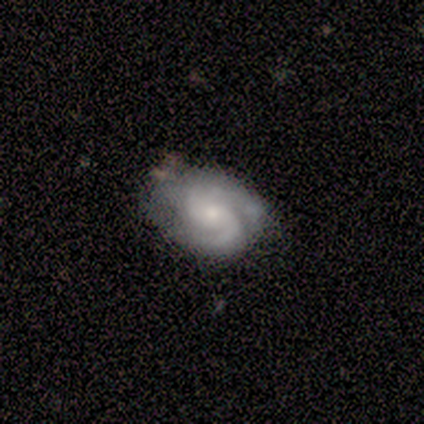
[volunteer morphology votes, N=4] Overall: featured or disk (75%). Edge-on disk: no (100%). Bar: no (67%; weak 33%). Spiral arms: yes (100%). Spiral arm count: 2 (100%). Spiral winding: tight (33%, tied with medium and loose). Bulge size: moderate (67%; small 33%). Merging: minor disturbance (50%; none 25%).